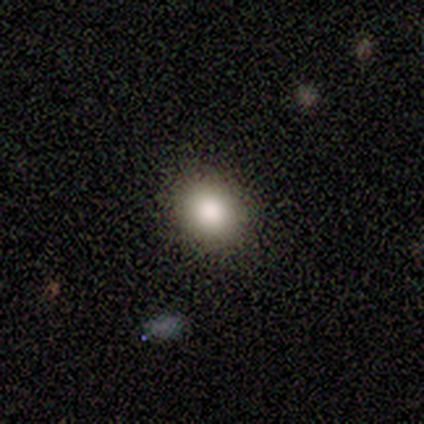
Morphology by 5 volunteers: type=featured or disk (40%, tied with star or artifact); edge-on=yes (50%, tied with no); edge-on bulge=none (100%); merging=none (100%).